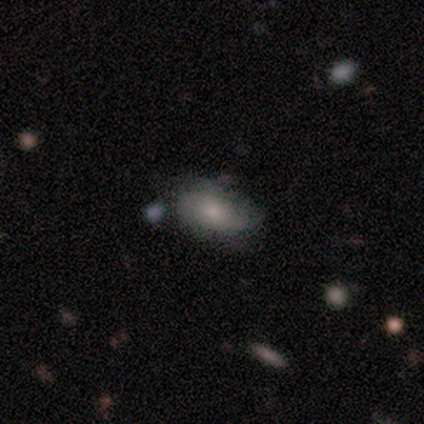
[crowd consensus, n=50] Overall: smooth (68%). How rounded: in between (94%). Merging: none (64%).